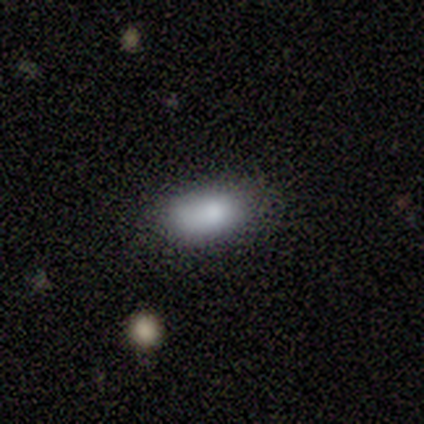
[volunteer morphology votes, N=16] Smooth or featured: smooth — 81% (featured or disk — 12%)
How rounded: in between — 100%
Merging: none — 80% (minor disturbance — 20%)